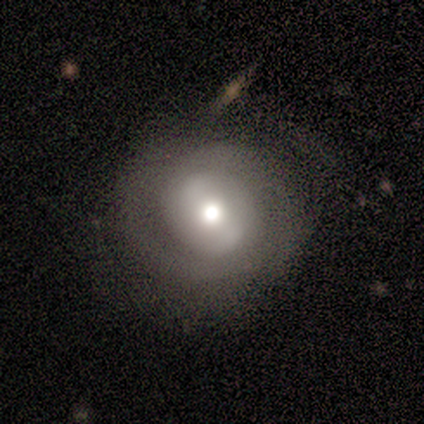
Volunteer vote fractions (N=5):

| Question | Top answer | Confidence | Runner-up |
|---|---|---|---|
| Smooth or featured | featured or disk | 60% | smooth (40%) |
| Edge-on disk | no | 100% | — |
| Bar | no | 100% | — |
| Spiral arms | yes | 67% | no (33%) |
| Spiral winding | tight | 50% | tied: medium (50%) |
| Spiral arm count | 2 | 100% | — |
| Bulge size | moderate | 67% | small (33%) |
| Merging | none | 80% | minor disturbance (20%) |